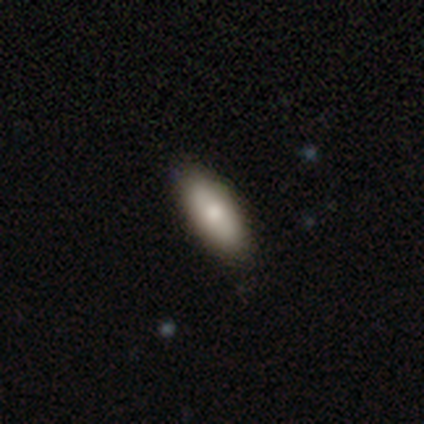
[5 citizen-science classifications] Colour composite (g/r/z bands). It shows a smooth galaxy with no disk features (100%) that is in between round and cigar-shaped (100%). Merging: none (80%).